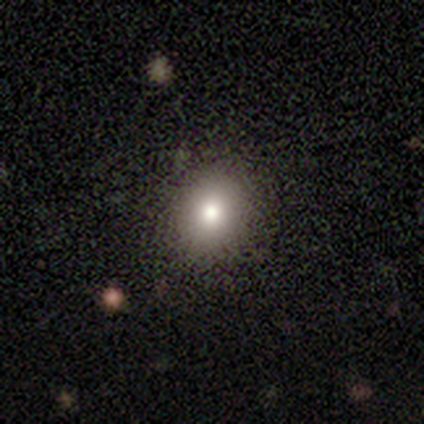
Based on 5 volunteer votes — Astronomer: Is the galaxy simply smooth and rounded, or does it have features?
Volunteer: smooth — 60% (runner-up: star or artifact, 40%).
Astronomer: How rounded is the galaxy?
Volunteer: round — 67%.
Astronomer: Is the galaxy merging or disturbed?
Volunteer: none — 100%.